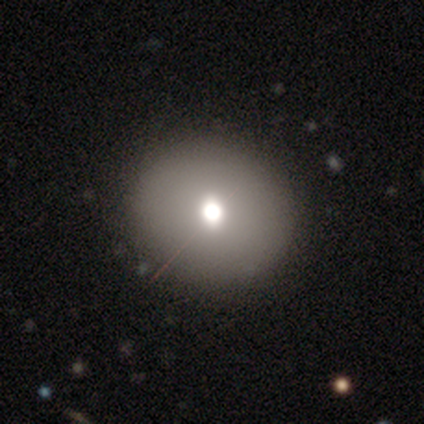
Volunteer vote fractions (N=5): Overall: featured or disk (60%; smooth 40%). Edge-on disk: no (100%). Bar: no (100%). Spiral arms: no (100%). Bulge size: large (67%; moderate 33%). Merging: none (80%).